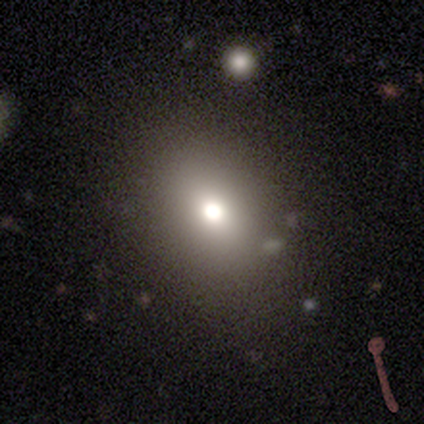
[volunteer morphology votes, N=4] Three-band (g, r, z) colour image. It shows a smooth galaxy with no disk features (75%) that is in between round and cigar-shaped (100%). Merging: none (67%).